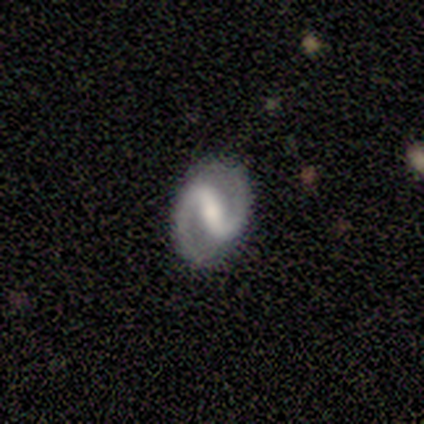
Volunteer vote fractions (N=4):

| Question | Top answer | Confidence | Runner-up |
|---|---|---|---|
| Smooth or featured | featured or disk | 100% | — |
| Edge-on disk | no | 100% | — |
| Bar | strong | 100% | — |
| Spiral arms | yes | 100% | — |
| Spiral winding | medium | 50% | tight (25%) |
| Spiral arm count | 1 | 50% | tied: 2 (50%) |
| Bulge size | none | 50% | moderate (25%) |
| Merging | none | 75% | minor disturbance (25%) |